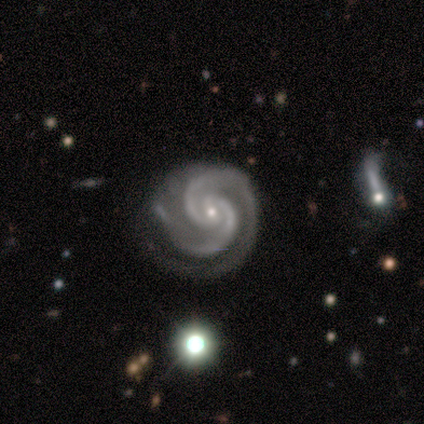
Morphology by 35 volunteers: Smooth or featured? 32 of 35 (91%) said featured or disk. Edge-on disk? 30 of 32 (94%) said no. Bar? 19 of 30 (63%) said no. Spiral arms? 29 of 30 (97%) said yes. Spiral winding? 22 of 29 (76%) said tight. Spiral arm count? 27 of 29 (93%) said 2. Bulge size? 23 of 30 (77%) said small. Merging? 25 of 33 (76%) said none.